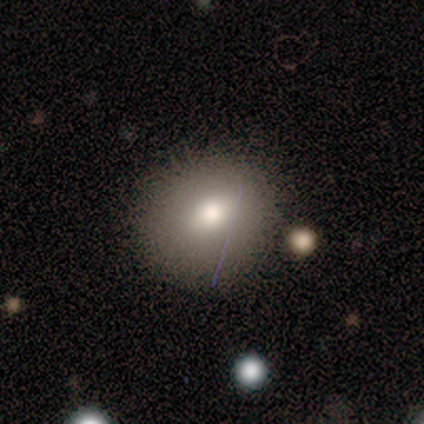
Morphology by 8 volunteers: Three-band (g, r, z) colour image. It shows a smooth galaxy with no disk features (62%) that is in between round and cigar-shaped (60%). Merging: none (67%).